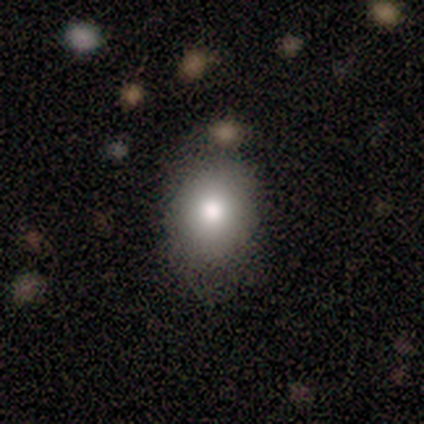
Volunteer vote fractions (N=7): A smooth galaxy with no disk features (71%) that is in between round and cigar-shaped (60%). Merging: none (60%).